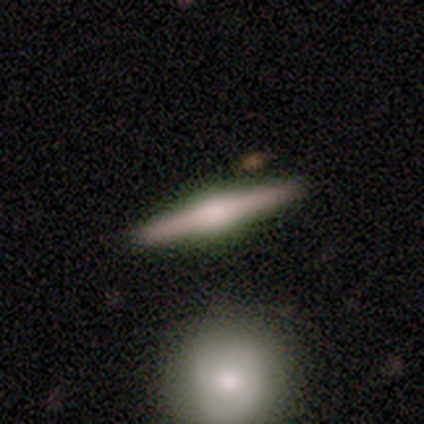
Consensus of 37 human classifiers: This is likely a featured or disk galaxy (73%). It is clearly viewed edge-on (96%). Edge-on bulge: clearly rounded (88%). Merging: likely none (78%).